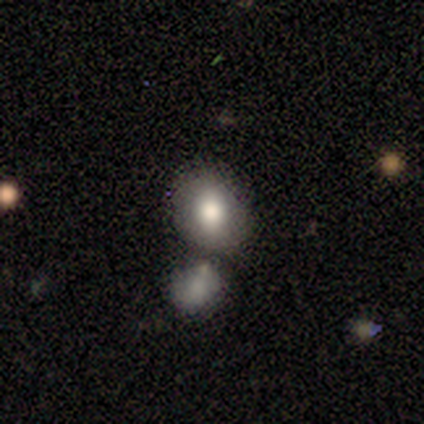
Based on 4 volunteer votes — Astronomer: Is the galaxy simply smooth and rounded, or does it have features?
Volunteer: smooth — 50%.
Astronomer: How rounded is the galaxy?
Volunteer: round — 50%, tied with in between at 50%.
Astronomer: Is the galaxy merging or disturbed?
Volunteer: minor disturbance — 33%, tied with major disturbance and merger at 33%.